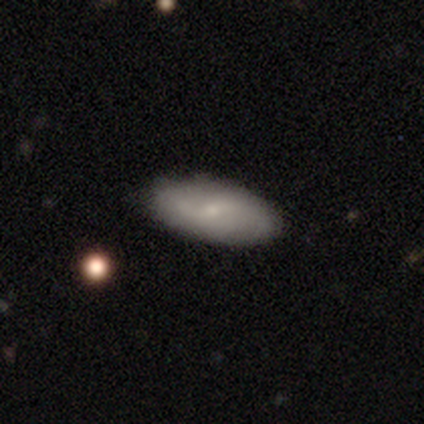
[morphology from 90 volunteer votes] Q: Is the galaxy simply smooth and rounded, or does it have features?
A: smooth — 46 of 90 (51%).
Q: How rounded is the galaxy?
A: in between — 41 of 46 (89%).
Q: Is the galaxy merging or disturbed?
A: none — 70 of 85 (82%).